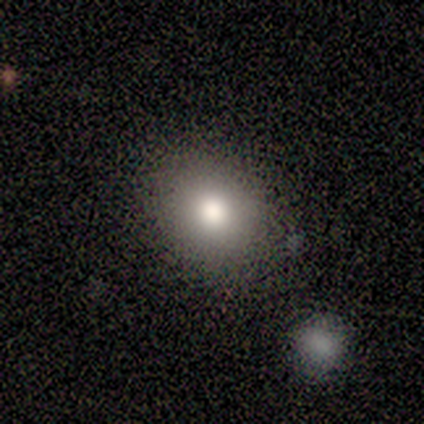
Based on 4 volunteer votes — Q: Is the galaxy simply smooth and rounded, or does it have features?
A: smooth — 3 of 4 (75%).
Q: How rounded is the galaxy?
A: in between — 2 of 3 (67%).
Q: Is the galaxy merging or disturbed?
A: none — 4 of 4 (100%).